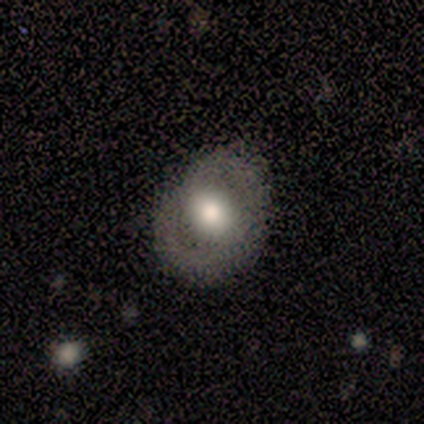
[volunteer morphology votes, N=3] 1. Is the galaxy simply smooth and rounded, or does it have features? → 67% smooth, 33% featured or disk, 0% star or artifact.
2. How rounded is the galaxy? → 100% in between, 0% round, 0% cigar-shaped.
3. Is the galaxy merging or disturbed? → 33% none (tied), 33% minor disturbance (tied), 33% major disturbance (tied), 0% merger.